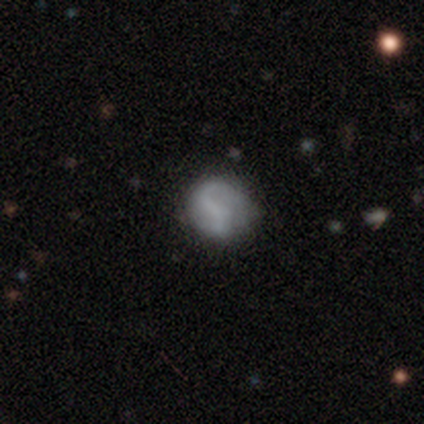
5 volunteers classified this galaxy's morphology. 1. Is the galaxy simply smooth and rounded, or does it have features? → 80% featured or disk, 20% smooth, 0% star or artifact.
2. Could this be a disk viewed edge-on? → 100% no, 0% yes.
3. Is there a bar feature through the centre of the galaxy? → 75% no, 25% weak, 0% strong.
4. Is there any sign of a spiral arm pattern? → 75% no, 25% yes.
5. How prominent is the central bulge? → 100% none, 0% dominant, 0% large, 0% moderate, 0% small.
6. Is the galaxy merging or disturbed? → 60% none, 40% minor disturbance, 0% major disturbance, 0% merger.